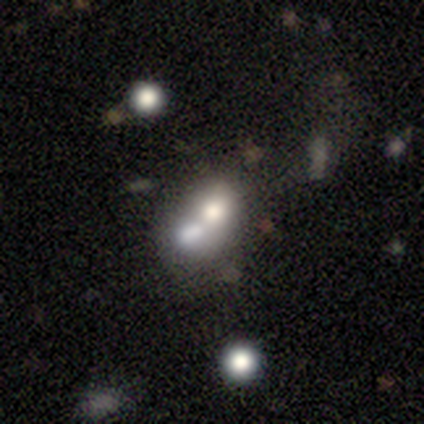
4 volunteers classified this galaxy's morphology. This appears to be a smooth galaxy with no disk features (50%, tied with featured or disk) that is round (50%, tied with in between). Merging: merger (50%).